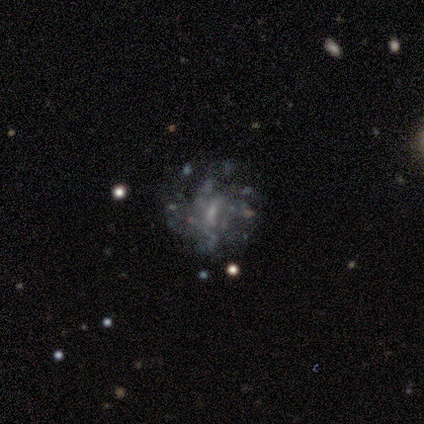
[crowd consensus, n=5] This is clearly a featured or disk galaxy (80%). It is clearly not viewed edge-on (100%). Bar: likely weak (75%). Spiral arm pattern: possibly yes (50%, tied with no). Spiral arm count: possibly 2 (50%, tied with 3). Spiral winding: clearly loose (100%). Central bulge: possibly moderate (50%). Merging: likely none (75%).